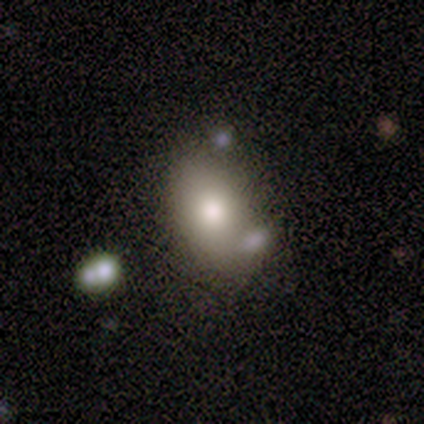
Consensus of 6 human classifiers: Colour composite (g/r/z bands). It shows a smooth galaxy with no disk features (83%) that is in between round and cigar-shaped (100%). Merging: none (67%).